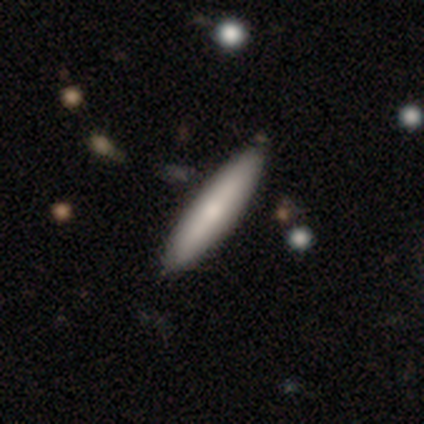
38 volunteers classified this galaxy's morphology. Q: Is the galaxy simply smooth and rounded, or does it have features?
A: smooth — 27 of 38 (71%).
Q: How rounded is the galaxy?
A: cigar-shaped — 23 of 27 (85%).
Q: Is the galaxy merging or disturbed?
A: none — 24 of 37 (65%).